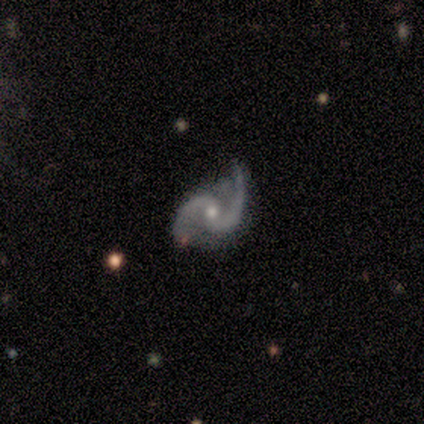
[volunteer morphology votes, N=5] A featured or disk galaxy (100%) with no bar (60%), 2 (100%) loose (80%) spiral arms (100%) and a small central bulge (60%). Merging: minor disturbance (60%).